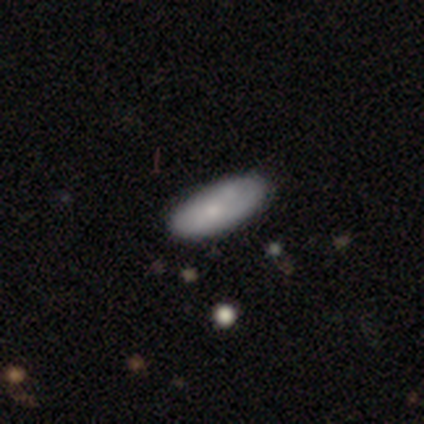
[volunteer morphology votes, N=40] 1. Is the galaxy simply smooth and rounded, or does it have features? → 72% smooth, 18% featured or disk, 10% star or artifact.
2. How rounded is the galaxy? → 83% in between, 17% cigar-shaped, 0% round.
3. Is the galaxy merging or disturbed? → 64% none, 33% minor disturbance, 3% major disturbance, 0% merger.